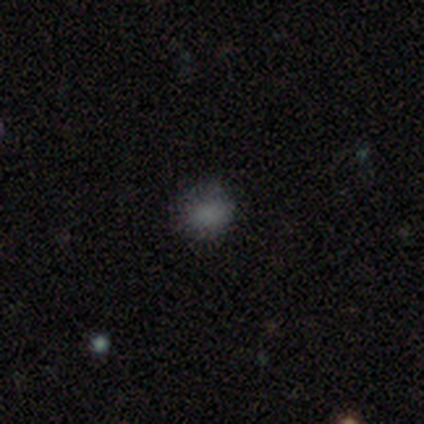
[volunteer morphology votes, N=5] Overall: smooth (80%). How rounded: round (100%). Merging: none (80%).